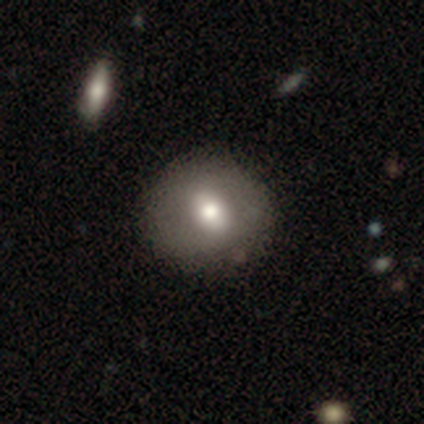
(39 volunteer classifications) Smooth or featured? smooth (67%)
How rounded? round (73%)
Merging? none (70%)